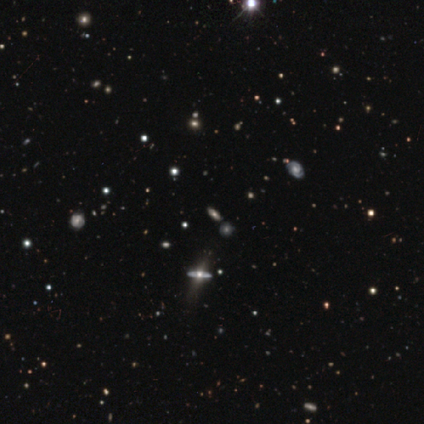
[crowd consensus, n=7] featured or disk 43%, smooth 29%, star or artifact 29%. Down the decision tree: edge-on disk — yes (67%); edge-on bulge — rounded (100%); merging — none (100%).